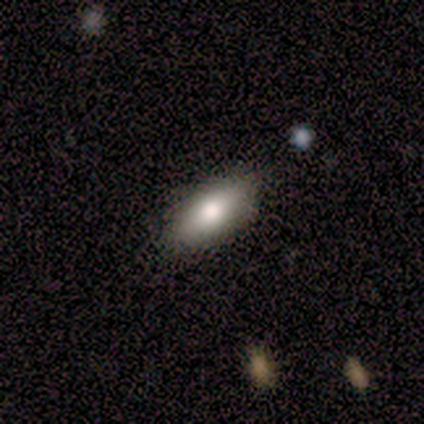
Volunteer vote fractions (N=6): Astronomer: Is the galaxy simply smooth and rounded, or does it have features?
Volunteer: smooth — 83%.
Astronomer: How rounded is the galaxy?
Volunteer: in between — 60% (runner-up: cigar-shaped, 40%).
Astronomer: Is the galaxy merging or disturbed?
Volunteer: none — 100%.